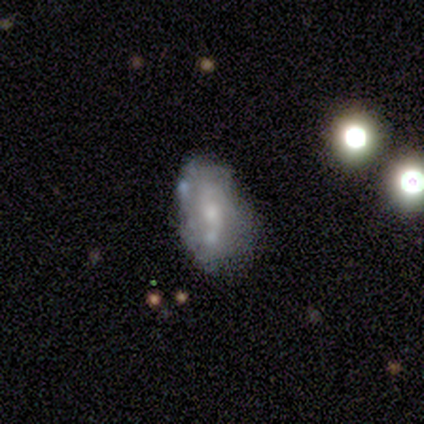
smooth_or_featured: featured or disk (p=0.69) [alt: smooth p=0.28]
disk_edge_on: no (p=0.96) [alt: yes p=0.04]
bar: no (p=0.83) [alt: weak p=0.12]
has_spiral_arms: yes (p=0.54) [alt: no p=0.46]
spiral_winding: tight (p=0.38) [tied with: medium p=0.38]
spiral_arm_count: 2 (p=0.54) [alt: can't tell p=0.31]
bulge_size: moderate (p=0.46) [alt: small p=0.33]
merging: none (p=0.49) [alt: minor disturbance p=0.37]